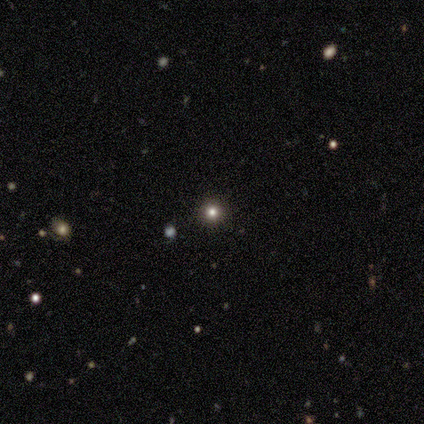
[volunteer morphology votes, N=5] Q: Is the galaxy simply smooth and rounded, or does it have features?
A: smooth — 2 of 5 (40%, tied with star or artifact).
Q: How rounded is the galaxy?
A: round — 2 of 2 (100%).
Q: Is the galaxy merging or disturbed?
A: none — 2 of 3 (67%).